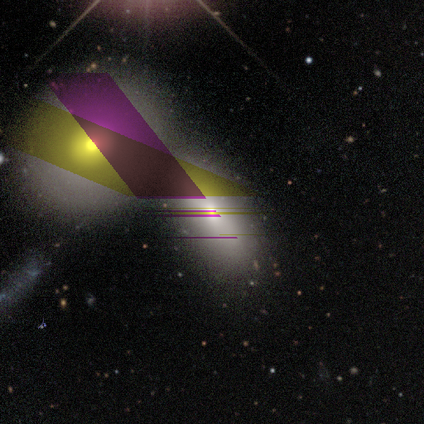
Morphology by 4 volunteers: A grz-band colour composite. It shows a smooth galaxy with no disk features (75%) that is in between round and cigar-shaped (67%). Merging: none (67%).